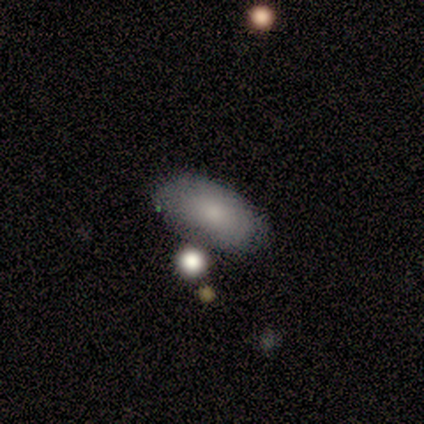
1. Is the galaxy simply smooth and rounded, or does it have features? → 85% smooth, 13% featured or disk, 3% star or artifact.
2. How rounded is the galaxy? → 94% in between, 6% round, 0% cigar-shaped.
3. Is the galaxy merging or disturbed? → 55% none, 13% minor disturbance, 11% merger, 0% major disturbance.